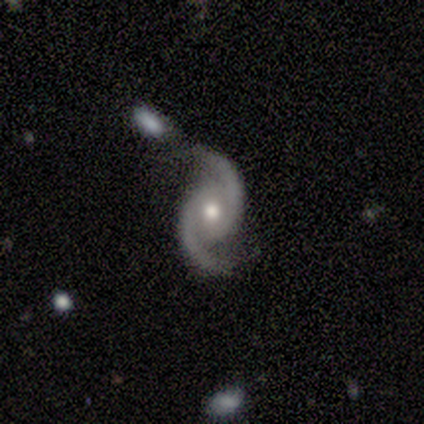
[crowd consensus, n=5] A featured or disk galaxy (100%) with no bar (60%), 2 (100%) medium (60%) spiral arms (100%) and a moderate central bulge (80%). Merging: merger (40%).